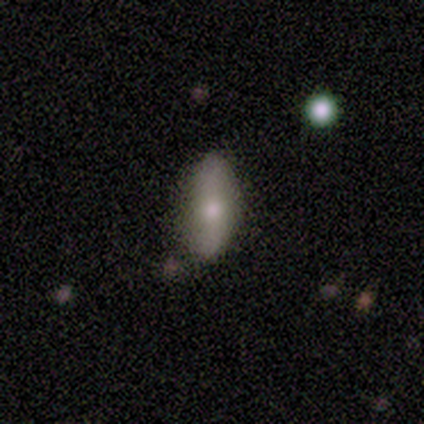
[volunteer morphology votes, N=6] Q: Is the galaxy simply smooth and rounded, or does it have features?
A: smooth — 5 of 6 (83%).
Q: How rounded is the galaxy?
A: in between — 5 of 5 (100%).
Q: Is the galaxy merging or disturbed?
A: none — 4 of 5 (80%).